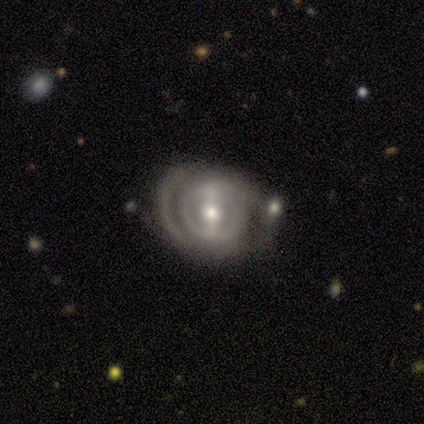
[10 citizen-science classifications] Smooth or featured?
  - featured or disk: 90% *
  - star or artifact: 10%
  - smooth: 0%
Edge-on disk?
  - no: 89% *
  - yes: 11%
Bar?
  - strong: 50% *
  - weak: 38%
  - no: 12%
Spiral arms?
  - no: 62% *
  - yes: 38%
Bulge size?
  - moderate: 62% *
  - small: 38%
  - dominant: 0%
  - large: 0%
  - none: 0%
Merging?
  - none: 56% *
  - minor disturbance: 22%
  - major disturbance: 22%
  - merger: 0%